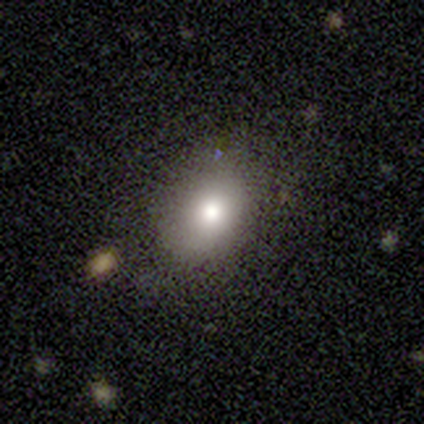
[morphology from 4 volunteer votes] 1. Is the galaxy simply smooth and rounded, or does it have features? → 75% smooth, 25% featured or disk, 0% star or artifact.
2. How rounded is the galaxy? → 100% round, 0% in between, 0% cigar-shaped.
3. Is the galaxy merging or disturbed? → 50% none (tied), 50% minor disturbance (tied), 0% major disturbance, 0% merger.